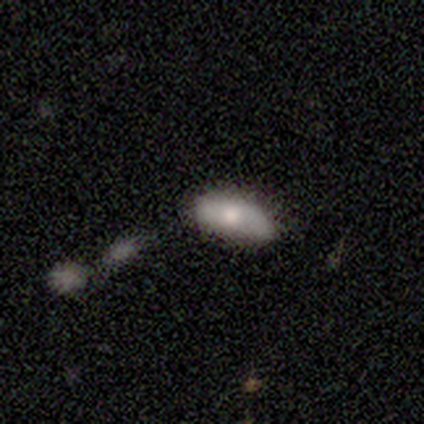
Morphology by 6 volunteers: Volunteers were most divided on "merging" (2-way tie): none: 50%, minor disturbance: 50%, major disturbance: 0%, merger: 0%. More confident: how rounded — in between (67%); smooth or featured — smooth (50%).